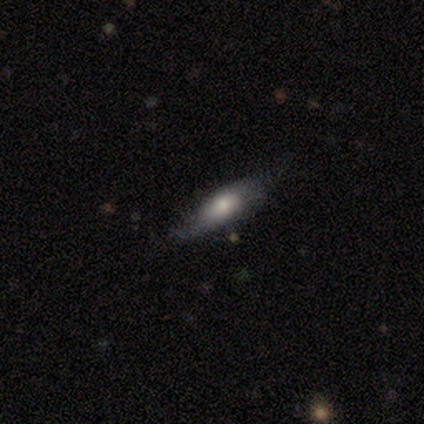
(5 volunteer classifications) Smooth or featured? smooth (80%)
How rounded? in between (50%, tied with cigar-shaped)
Merging? none (40%, tied with minor disturbance)